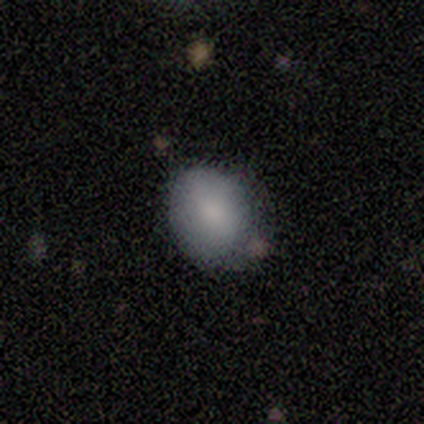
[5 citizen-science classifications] This appears to be a smooth galaxy with no disk features (80%) that is round (50%, tied with in between). Merging: none (100%).